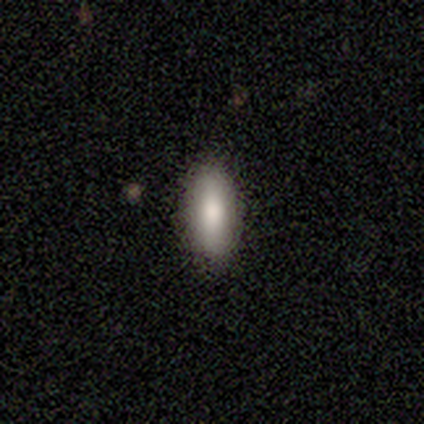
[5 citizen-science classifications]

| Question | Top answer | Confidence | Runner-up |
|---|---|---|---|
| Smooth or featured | smooth | 80% | star or artifact (20%) |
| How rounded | in between | 50% | tied: cigar-shaped (50%) |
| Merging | none | 100% | — |